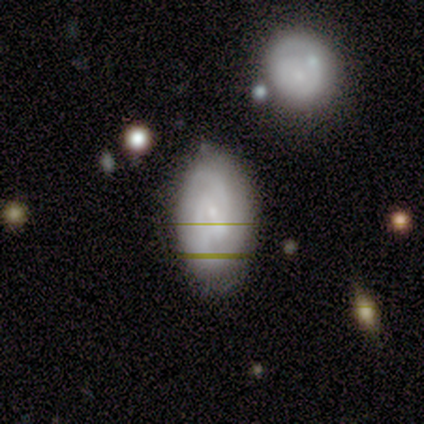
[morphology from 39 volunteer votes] Volunteers were most divided on "spiral winding" (2-way tie): tight: 46%, medium: 46%, loose: 8%. Remaining: edge-on disk — no (100%); spiral arms — yes (89%); spiral arm count — 2 (83%); bulge size — small (78%); smooth or featured — featured or disk (69%); merging — none (56%); bar — weak (48%).